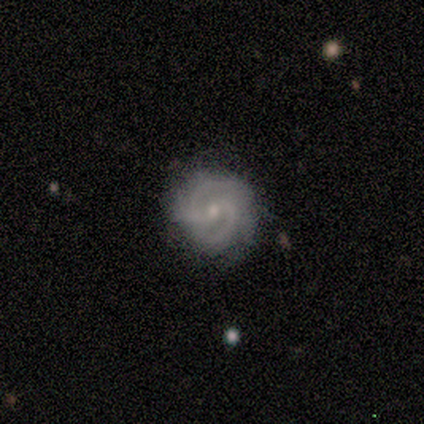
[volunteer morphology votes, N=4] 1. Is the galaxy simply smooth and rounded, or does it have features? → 100% featured or disk, 0% smooth, 0% star or artifact.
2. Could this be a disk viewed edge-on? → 100% no, 0% yes.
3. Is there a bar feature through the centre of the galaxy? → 75% no, 25% weak, 0% strong.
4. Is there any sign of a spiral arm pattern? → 100% yes, 0% no.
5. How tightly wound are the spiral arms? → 75% medium, 25% tight, 0% loose.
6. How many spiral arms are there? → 50% 2 (tied), 50% can't tell (tied), 0% 1, 0% 3, 0% 4, 0% more than 4.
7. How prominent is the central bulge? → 75% small, 25% moderate, 0% dominant, 0% large, 0% none.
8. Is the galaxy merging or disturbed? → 100% none, 0% minor disturbance, 0% major disturbance, 0% merger.